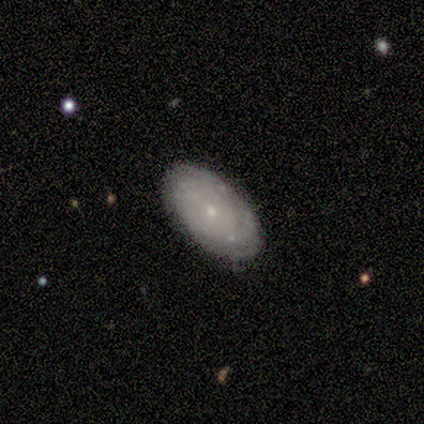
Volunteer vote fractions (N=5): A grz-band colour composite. It shows a smooth galaxy with no disk features (80%) that is in between round and cigar-shaped (100%). Merging: none (100%).